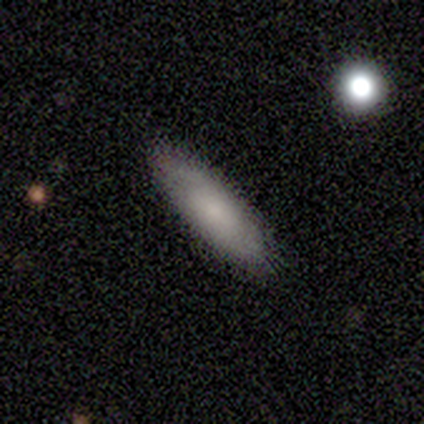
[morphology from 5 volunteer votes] This is clearly a smooth galaxy (100%). How rounded: likely in between (60%). Merging: clearly none (100%).